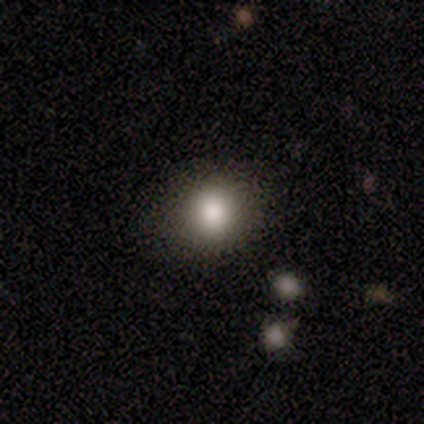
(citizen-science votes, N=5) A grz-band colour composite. It shows a smooth galaxy with no disk features (80%) that is round (100%). Merging: none (60%).